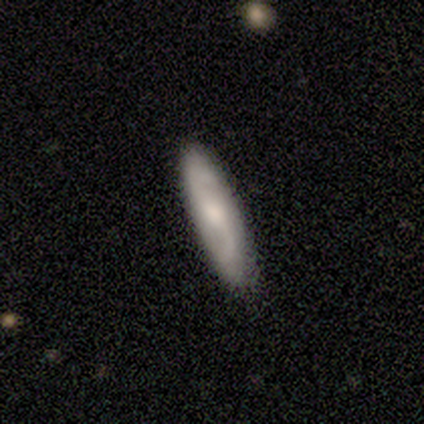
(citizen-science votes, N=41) Smooth or featured?
  - featured or disk: 49% *
  - smooth: 46%
  - star or artifact: 5%
Edge-on disk?
  - no: 70% *
  - yes: 30%
Bar?
  - no: 57% *
  - weak: 36%
  - strong: 7%
Spiral arms?
  - yes: 86% *
  - no: 14%
Spiral winding?
  - loose: 67% *
  - medium: 33%
  - tight: 0%
Spiral arm count?
  - 2: 100% *
  - 1: 0%
  - 3: 0%
  - 4: 0%
  - more than 4: 0%
  - can't tell: 0%
Bulge size?
  - moderate: 64% *
  - none: 29%
  - small: 7%
  - dominant: 0%
  - large: 0%
Merging?
  - none: 90% *
  - minor disturbance: 5%
  - major disturbance: 3%
  - merger: 3%